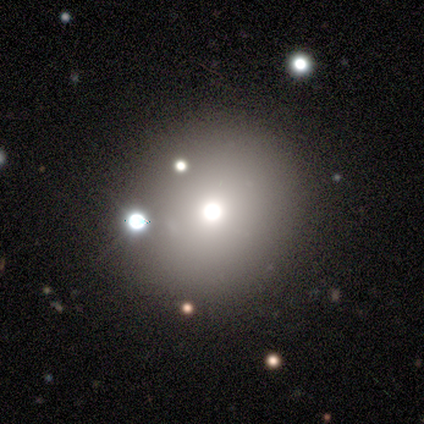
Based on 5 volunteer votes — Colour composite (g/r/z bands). It shows a star or artifact, not a galaxy (60%).